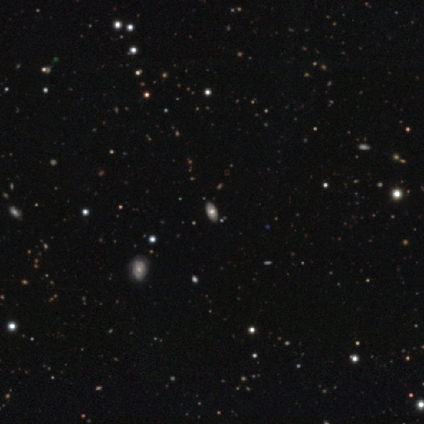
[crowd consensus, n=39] smooth 62%, star or artifact 21%, featured or disk 18%. Down the decision tree: how rounded — in between (96%); merging — none (68%).